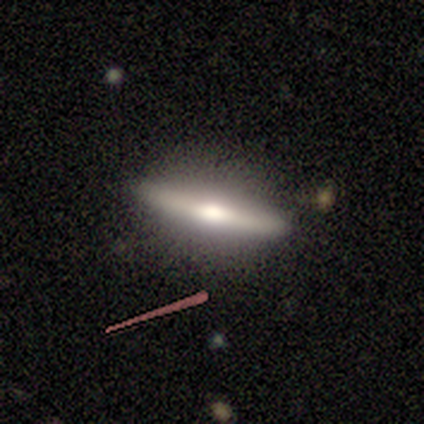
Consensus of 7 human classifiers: smooth-or-featured: featured or disk: 71% | smooth: 29% | star or artifact: 0%
  disk-edge-on: yes: 100% | no: 0%
    edge-on-bulge: rounded: 80% | boxy: 20% | none: 0%
  merging: none: 86% | minor disturbance: 14% | major disturbance: 0% | merger: 0%